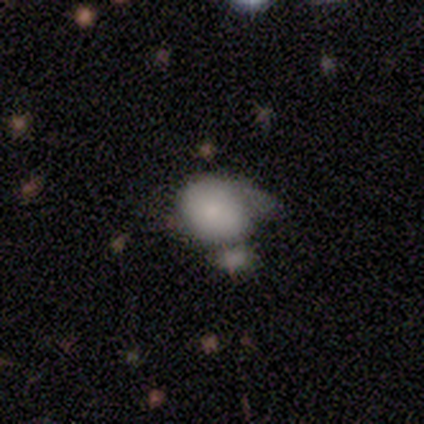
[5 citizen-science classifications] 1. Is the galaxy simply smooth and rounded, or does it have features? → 60% smooth, 20% featured or disk, 20% star or artifact.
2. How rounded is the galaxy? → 67% in between, 33% round, 0% cigar-shaped.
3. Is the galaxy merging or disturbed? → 75% minor disturbance, 25% major disturbance, 0% none, 0% merger.